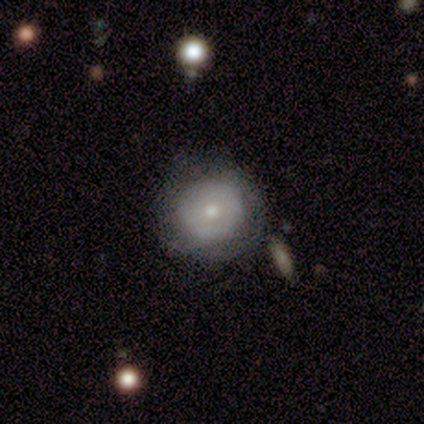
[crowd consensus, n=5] This is likely a featured or disk galaxy (60%). It is clearly not viewed edge-on (100%). Bar: clearly no (100%). Spiral arm pattern: clearly no (100%). Central bulge: likely moderate (67%). Merging: clearly none (100%).